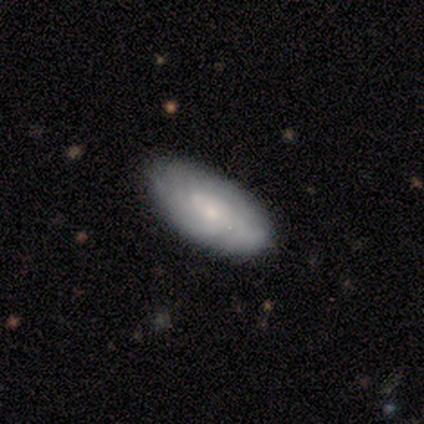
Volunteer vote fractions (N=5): Overall: featured or disk (60%; smooth 40%). Edge-on disk: no (100%). Bar: no (67%; weak 33%). Spiral arms: yes (67%; no 33%). Spiral arm count: can't tell (100%). Spiral winding: tight (100%). Bulge size: small (67%; moderate 33%). Merging: none (100%).